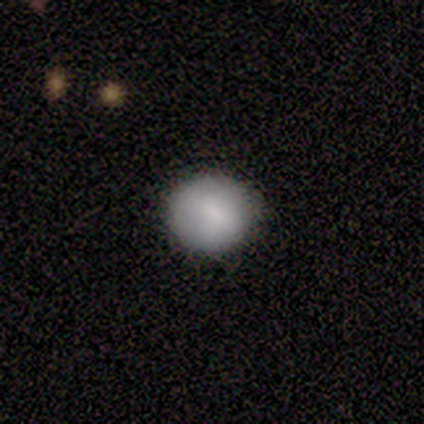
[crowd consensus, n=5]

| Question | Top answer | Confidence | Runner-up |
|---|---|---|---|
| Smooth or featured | smooth | 100% | — |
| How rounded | round | 100% | — |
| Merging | none | 100% | — |